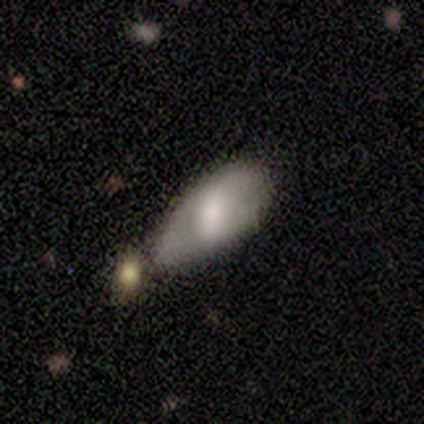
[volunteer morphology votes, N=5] This appears to be a featured or disk galaxy (60%) with a weak bar (67%), 2 (50%, tied with can't tell) medium (100%) spiral arms (67%) and a moderate central bulge (100%). Merging: none (60%).